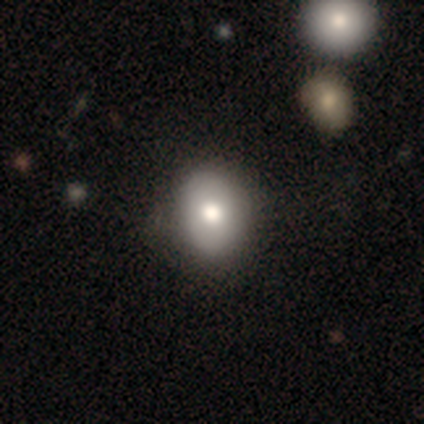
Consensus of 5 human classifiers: This is likely a featured or disk galaxy (60%). It is clearly not viewed edge-on (100%). Bar: clearly no (100%). Spiral arm pattern: clearly no (100%). Central bulge: clearly moderate (100%). Merging: clearly none (100%).